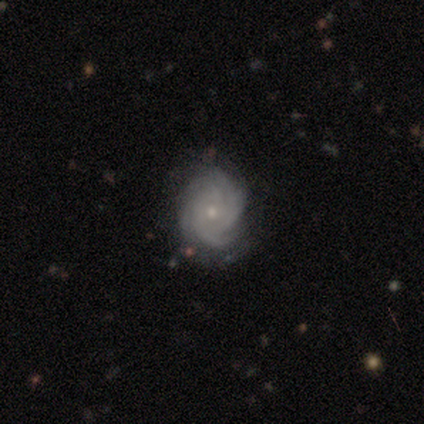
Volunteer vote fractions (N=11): smooth_or_featured: featured or disk (p=0.91) [alt: smooth p=0.09]
disk_edge_on: no (p=1.00)
bar: no (p=0.80) [alt: weak p=0.20]
has_spiral_arms: yes (p=1.00)
spiral_winding: tight (p=0.60) [alt: medium p=0.30]
spiral_arm_count: 4 (p=0.40) [alt: more than 4 p=0.20]
bulge_size: small (p=0.70) [alt: moderate p=0.20]
merging: none (p=0.82) [alt: minor disturbance p=0.09]